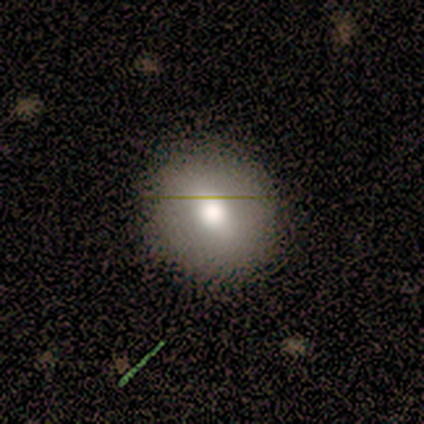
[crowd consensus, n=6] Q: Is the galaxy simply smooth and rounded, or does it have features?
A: smooth — 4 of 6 (67%).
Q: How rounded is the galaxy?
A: round — 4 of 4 (100%).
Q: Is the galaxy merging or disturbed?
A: none — 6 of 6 (100%).